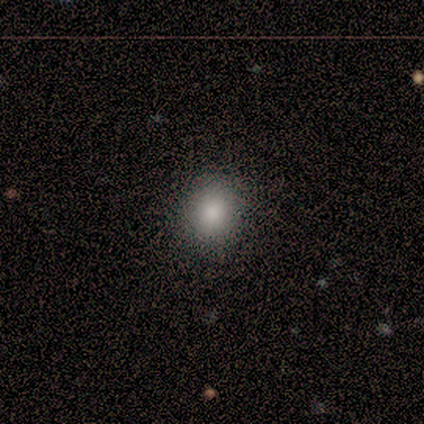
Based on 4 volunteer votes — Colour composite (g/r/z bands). It shows a smooth galaxy with no disk features (100%) that is round (75%). Merging: none (75%).